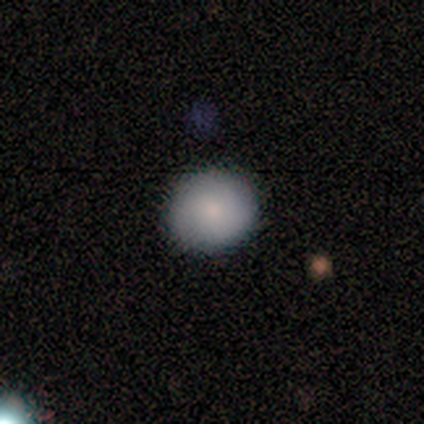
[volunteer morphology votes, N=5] A smooth galaxy with no disk features (80%) that is round (75%).

Vote fractions:
- Smooth or featured? smooth: 80% / star or artifact: 20% / featured or disk: 0%
- How rounded? round: 75% / in between: 25% / cigar-shaped: 0%
- Merging? none: 50% (tied) / minor disturbance: 50% (tied) / major disturbance: 0% / merger: 0%